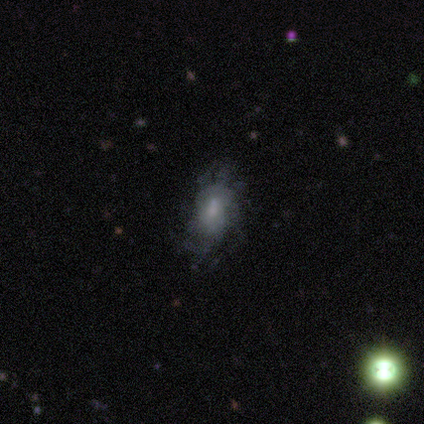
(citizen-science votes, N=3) A featured or disk galaxy (67%) with a weak bar (50%, tied with no), tight (100%) spiral arms (50%, tied with no) and a moderate central bulge (50%, tied with none).

Vote fractions:
- Smooth or featured? featured or disk: 67% / smooth: 33% / star or artifact: 0%
- Edge-on disk? no: 100% / yes: 0%
- Bar? weak: 50% (tied) / no: 50% (tied) / strong: 0%
- Spiral arms? yes: 50% (tied) / no: 50% (tied)
- Spiral winding? tight: 100% / medium: 0% / loose: 0%
- Spiral arm count? can't tell: 100% / 1: 0% / 2: 0% / 3: 0% / 4: 0% / more than 4: 0%
- Bulge size? moderate: 50% (tied) / none: 50% (tied) / dominant: 0% / large: 0% / small: 0%
- Merging? none: 67% / minor disturbance: 33% / major disturbance: 0% / merger: 0%